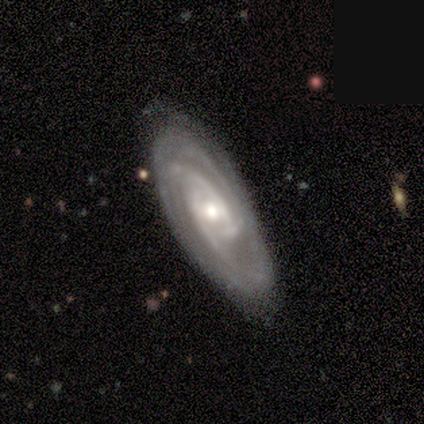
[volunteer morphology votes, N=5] featured or disk 100%, smooth 0%, star or artifact 0%. Down the decision tree: edge-on disk — no (80%); bar — weak (50%, tied with no); spiral arms — yes (100%); spiral arm count — can't tell (75%); spiral winding — tight (100%); bulge size — moderate (75%); merging — none (100%).